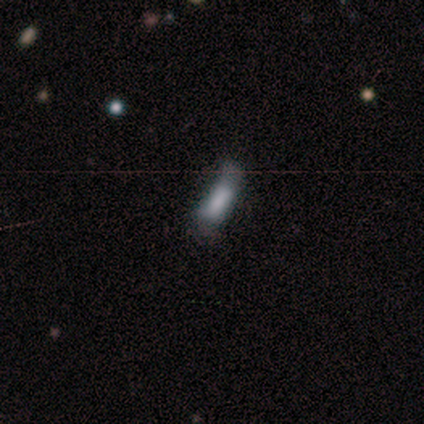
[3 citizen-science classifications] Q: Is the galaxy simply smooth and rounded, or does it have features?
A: smooth — 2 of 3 (67%).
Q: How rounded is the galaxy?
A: in between — 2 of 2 (100%).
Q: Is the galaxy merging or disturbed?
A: none — 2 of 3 (67%).